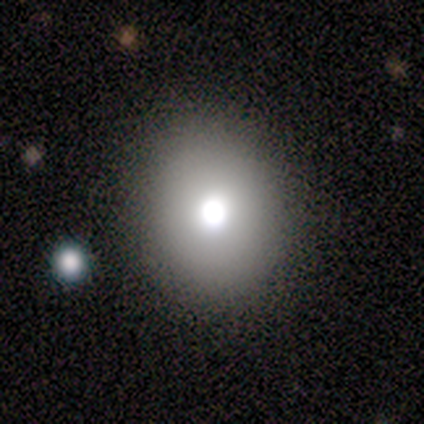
Overall: smooth (80%). How rounded: round (100%). Merging: none (80%).